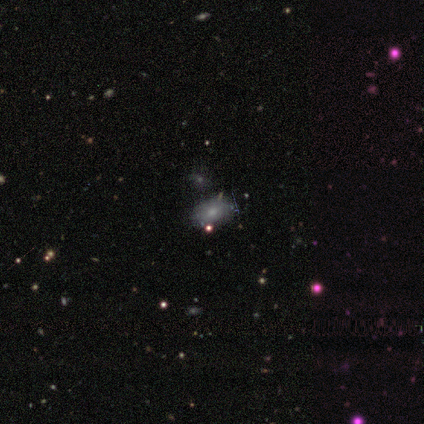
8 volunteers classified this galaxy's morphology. This is likely a smooth galaxy (75%). How rounded: clearly in between (83%). Merging: likely none (62%).